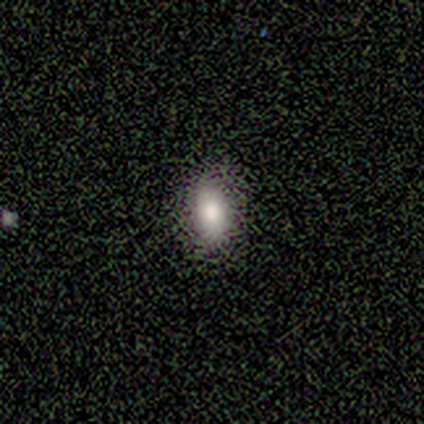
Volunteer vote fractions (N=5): Smooth or featured? smooth (100%)
How rounded? in between (100%)
Merging? none (100%)